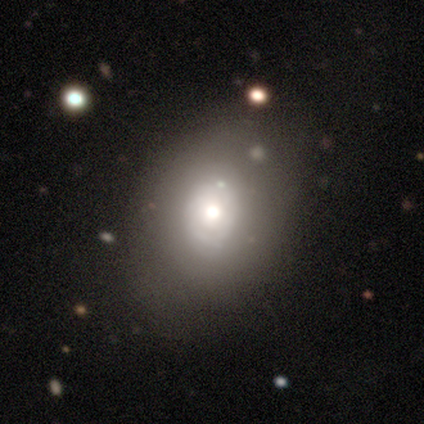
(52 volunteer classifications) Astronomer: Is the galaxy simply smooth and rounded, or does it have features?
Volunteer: smooth — 48% (runner-up: featured or disk, 46%).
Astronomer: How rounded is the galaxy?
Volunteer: in between — 76%.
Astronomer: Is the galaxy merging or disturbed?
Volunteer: none — 65%.